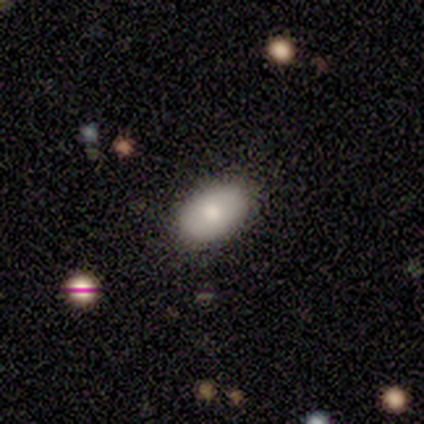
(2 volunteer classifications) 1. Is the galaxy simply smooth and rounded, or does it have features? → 100% smooth, 0% featured or disk, 0% star or artifact.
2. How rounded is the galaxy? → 100% in between, 0% round, 0% cigar-shaped.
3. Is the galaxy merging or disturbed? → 100% none, 0% minor disturbance, 0% major disturbance, 0% merger.